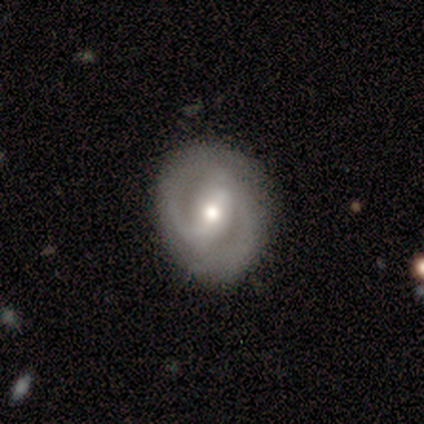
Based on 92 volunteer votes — smooth-or-featured: featured or disk: 68% | smooth: 22% | star or artifact: 10%
  disk-edge-on: no: 98% | yes: 2%
    bar: weak: 45% | strong: 37% | no: 18%
    has-spiral-arms: yes: 85% | no: 15%
      spiral-winding: tight: 51% | medium: 28% | loose: 21%
      spiral-arm-count: 2: 92% | can't tell: 6% | 1: 2% | 3: 0% | 4: 0% | more than 4: 0%
    bulge-size: moderate: 63% | small: 29% | large: 5% | none: 3% | dominant: 0%
  merging: none: 80% | minor disturbance: 17% | merger: 2% | major disturbance: 1%